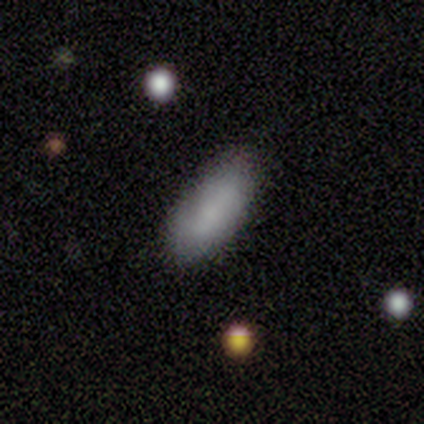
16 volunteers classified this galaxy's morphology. Volunteers were most divided on "merging": none: 75%, minor disturbance: 25%, major disturbance: 0%, merger: 0%. More confident: smooth or featured — smooth (94%); how rounded — in between (93%).